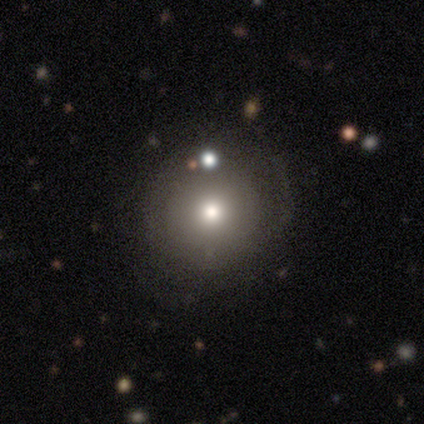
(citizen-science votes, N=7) This is likely a smooth galaxy (71%). How rounded: clearly round (100%). Merging: possibly none (50%, tied with minor disturbance).